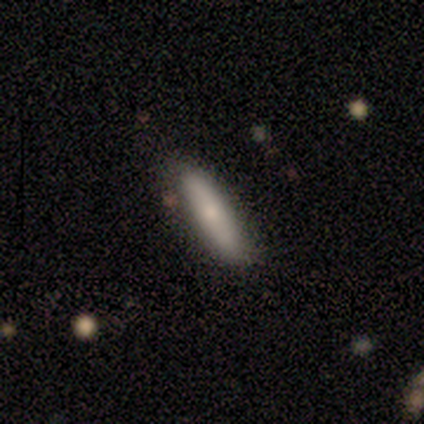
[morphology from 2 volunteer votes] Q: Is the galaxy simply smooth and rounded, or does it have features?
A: smooth — 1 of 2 (50%, tied with featured or disk).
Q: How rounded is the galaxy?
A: in between — 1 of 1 (100%).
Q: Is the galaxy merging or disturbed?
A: none — 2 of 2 (100%).